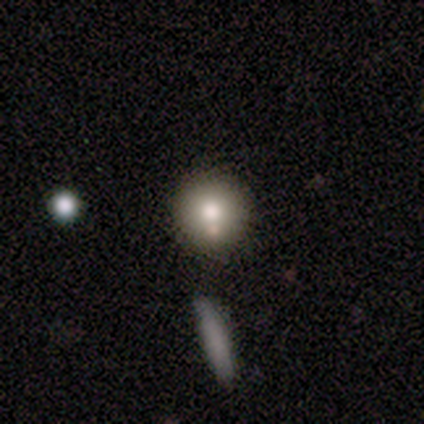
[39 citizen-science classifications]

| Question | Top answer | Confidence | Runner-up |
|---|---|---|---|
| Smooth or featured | smooth | 72% | featured or disk (21%) |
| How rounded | round | 96% | cigar-shaped (4%) |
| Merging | none | 67% | merger (22%) |